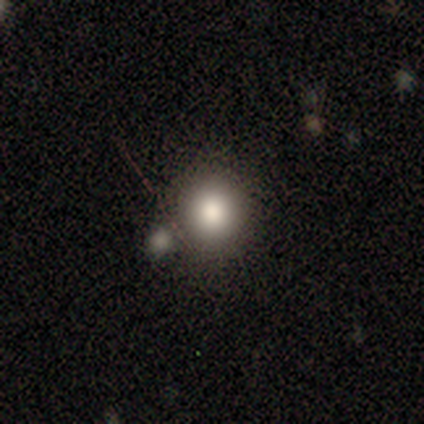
smooth 100%, featured or disk 0%, star or artifact 0%. Down the decision tree: how rounded — round (75%); merging — none (75%).